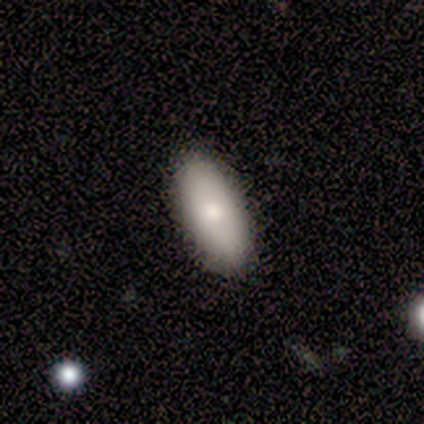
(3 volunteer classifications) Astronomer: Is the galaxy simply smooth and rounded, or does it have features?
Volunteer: smooth — 100%.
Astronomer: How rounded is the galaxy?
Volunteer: in between — 100%.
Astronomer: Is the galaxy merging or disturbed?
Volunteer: minor disturbance — 67%.